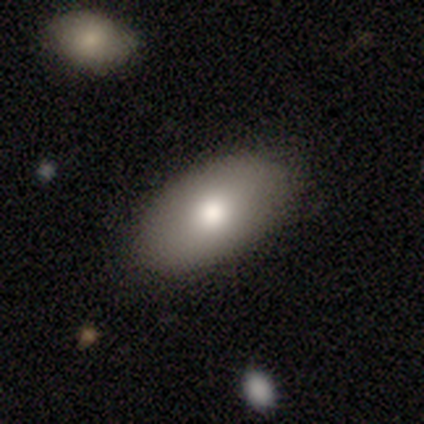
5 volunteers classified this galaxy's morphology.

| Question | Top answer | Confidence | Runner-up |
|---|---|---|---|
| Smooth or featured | featured or disk | 60% | smooth (40%) |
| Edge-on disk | no | 100% | — |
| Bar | no | 67% | strong (33%) |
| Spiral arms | no | 67% | yes (33%) |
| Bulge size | moderate | 67% | large (33%) |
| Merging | none | 60% | minor disturbance (40%) |